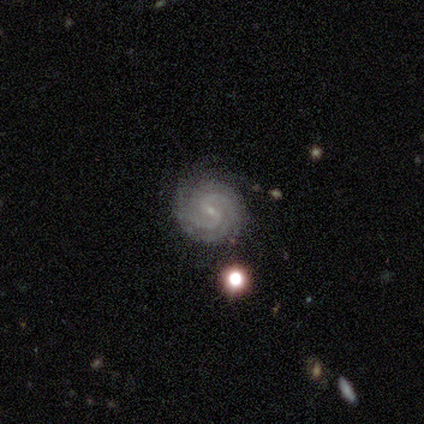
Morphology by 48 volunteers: Smooth or featured? featured or disk (85%)
Edge-on disk? no (98%)
Bar? weak (55%)
Spiral arms? yes (98%)
Spiral winding? tight (64%)
Spiral arm count? 2 (56%)
Bulge size? small (75%)
Merging? none (77%)